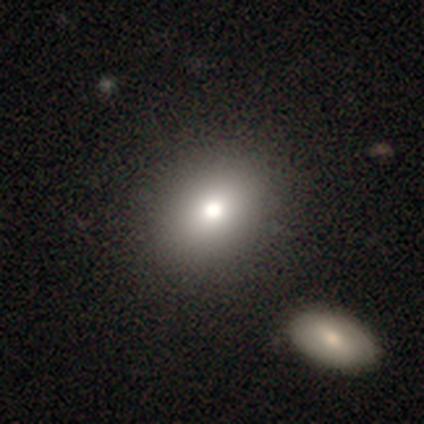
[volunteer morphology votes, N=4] Volunteers were most divided on "how rounded": in between: 75%, round: 25%, cigar-shaped: 0%. More confident: smooth or featured — smooth (100%); merging — none (100%).